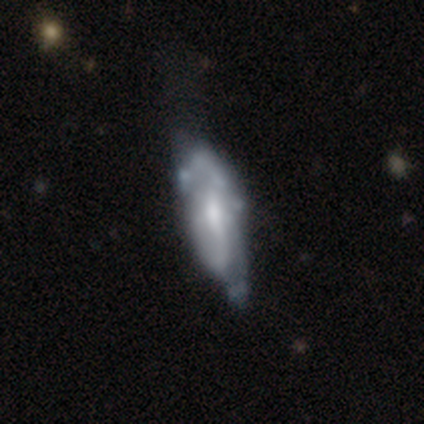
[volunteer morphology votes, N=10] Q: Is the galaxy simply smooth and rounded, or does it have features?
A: featured or disk — 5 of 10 (50%).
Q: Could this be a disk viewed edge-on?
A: no — 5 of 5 (100%).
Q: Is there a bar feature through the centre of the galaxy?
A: no — 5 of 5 (100%).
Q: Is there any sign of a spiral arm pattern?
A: yes — 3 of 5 (60%).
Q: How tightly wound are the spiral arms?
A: medium — 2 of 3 (67%).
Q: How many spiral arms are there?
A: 1 — 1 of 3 (33%, tied with 2 and 3).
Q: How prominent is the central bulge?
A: none — 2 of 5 (40%).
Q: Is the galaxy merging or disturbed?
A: minor disturbance — 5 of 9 (56%).